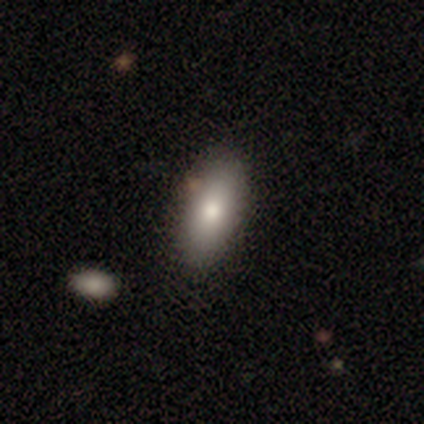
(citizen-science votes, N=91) Morphology: type=smooth (82%); roundness=in between (81%); merging=none (82%).